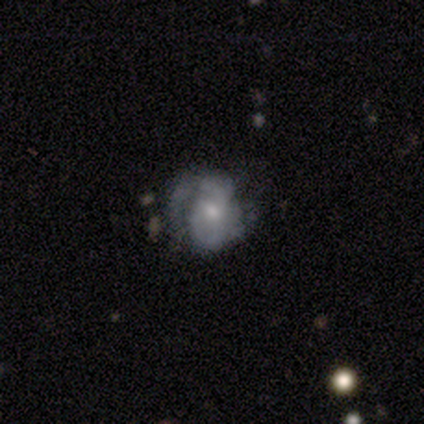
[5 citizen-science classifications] Smooth or featured?
  - featured or disk: 80% *
  - smooth: 20%
  - star or artifact: 0%
Edge-on disk?
  - no: 100% *
  - yes: 0%
Bar?
  - no: 75% *
  - weak: 25%
  - strong: 0%
Spiral arms?
  - yes: 75% *
  - no: 25%
Spiral winding?
  - tight: 67% *
  - medium: 33%
  - loose: 0%
Spiral arm count?
  - can't tell: 67% *
  - 1: 33%
  - 2: 0%
  - 3: 0%
  - 4: 0%
  - more than 4: 0%
Bulge size?
  - moderate: 50% *
  - dominant: 25%
  - small: 25%
  - large: 0%
  - none: 0%
Merging?
  - none: 80% *
  - major disturbance: 20%
  - minor disturbance: 0%
  - merger: 0%